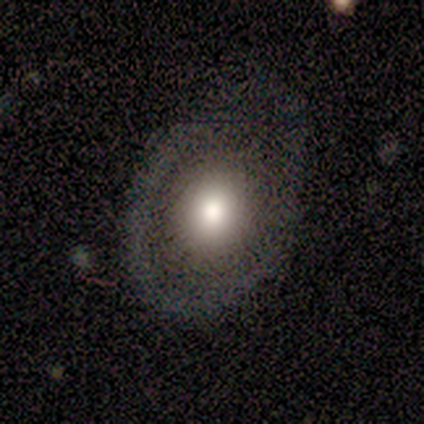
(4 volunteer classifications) Q: Smooth or featured?
A: smooth (50%); tied with: featured or disk (50%)
Q: How rounded?
A: round (50%); tied with: in between (50%)
Q: Merging?
A: none (50%); tied with: major disturbance (50%)